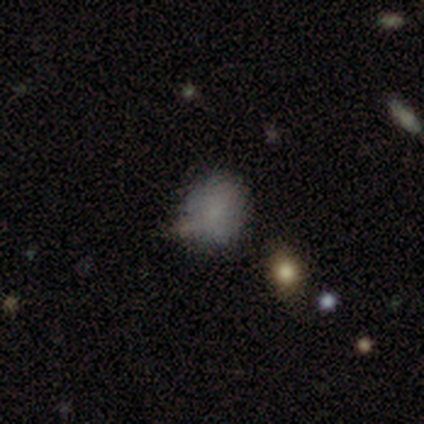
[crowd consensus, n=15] smooth 93%, featured or disk 7%, star or artifact 0%. Down the decision tree: how rounded — round (64%); merging — none (60%).